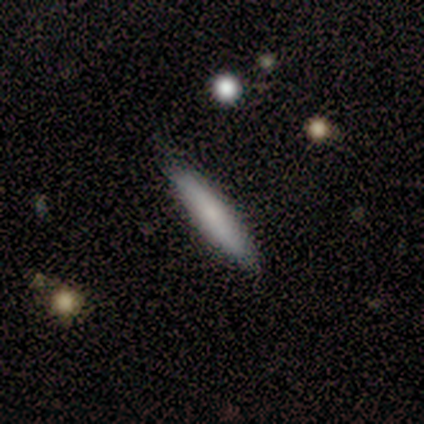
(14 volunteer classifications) Smooth or featured? smooth (71%)
How rounded? cigar-shaped (90%)
Merging? none (100%)